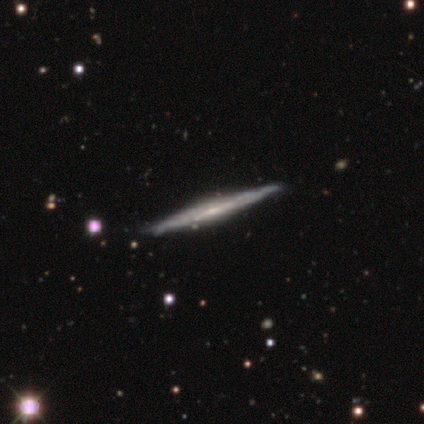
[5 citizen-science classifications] This appears to be a featured or disk galaxy (60%) viewed edge-on (67%) with no central bulge (50%, tied with rounded). Merging: none (67%).